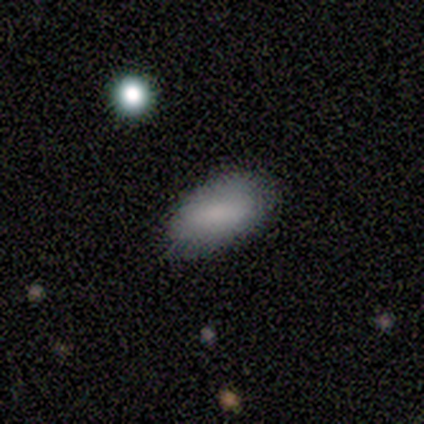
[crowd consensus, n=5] Smooth or featured?
  - smooth: 80% *
  - featured or disk: 20%
  - star or artifact: 0%
How rounded?
  - in between: 100% *
  - round: 0%
  - cigar-shaped: 0%
Merging?
  - none: 100% *
  - minor disturbance: 0%
  - major disturbance: 0%
  - merger: 0%